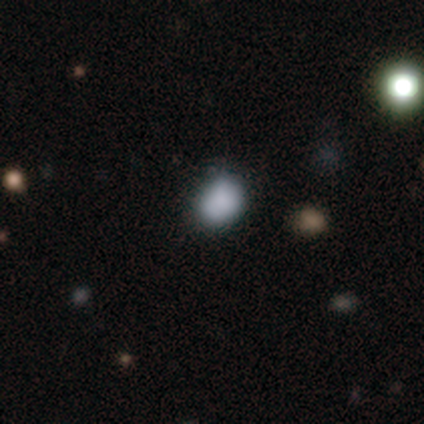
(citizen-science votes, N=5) This is likely a smooth galaxy (60%). How rounded: likely round (67%). Merging: likely minor disturbance (67%).